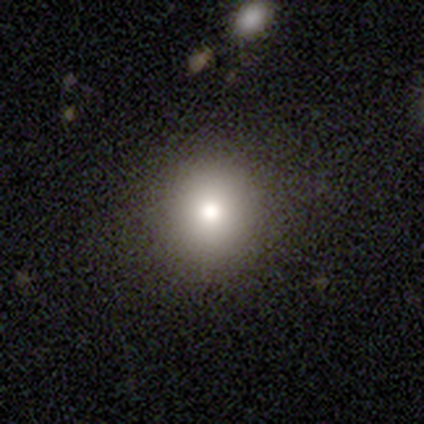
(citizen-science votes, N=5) A smooth galaxy with no disk features (80%) that is round (100%).

Vote fractions:
- Smooth or featured? smooth: 80% / featured or disk: 20% / star or artifact: 0%
- How rounded? round: 100% / in between: 0% / cigar-shaped: 0%
- Merging? none: 100% / minor disturbance: 0% / major disturbance: 0% / merger: 0%